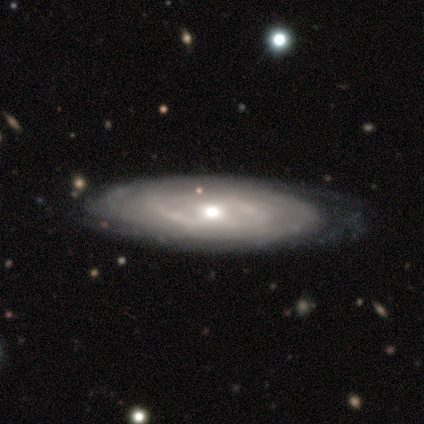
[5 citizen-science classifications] Smooth or featured?
  - featured or disk: 80% *
  - smooth: 20%
  - star or artifact: 0%
Edge-on disk?
  - no: 75% *
  - yes: 25%
Bar?
  - no: 67% *
  - weak: 33%
  - strong: 0%
Spiral arms?
  - yes: 100% *
  - no: 0%
Spiral winding?
  - tight: 67% *
  - medium: 33%
  - loose: 0%
Spiral arm count?
  - 2: 33% * (tied)
  - more than 4: 33% * (tied)
  - can't tell: 33% * (tied)
  - 1: 0%
  - 3: 0%
  - 4: 0%
Bulge size?
  - large: 33% * (tied)
  - moderate: 33% * (tied)
  - small: 33% * (tied)
  - dominant: 0%
  - none: 0%
Merging?
  - none: 100% *
  - minor disturbance: 0%
  - major disturbance: 0%
  - merger: 0%